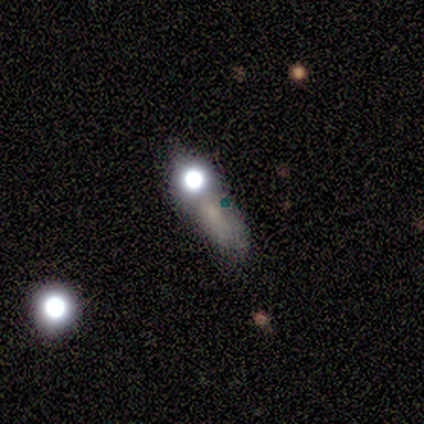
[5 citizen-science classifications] Smooth or featured: smooth — 60% (featured or disk — 20%)
How rounded: in between — 67% (round — 33%)
Merging: none — 50% (minor disturbance — 25%)